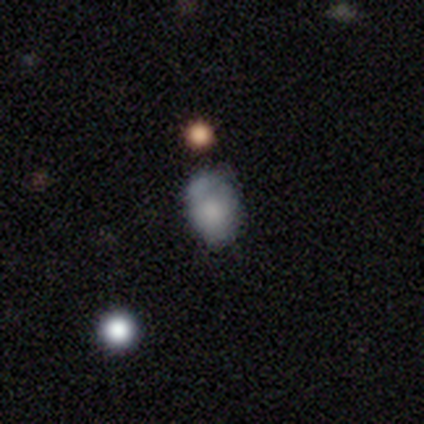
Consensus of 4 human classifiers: smooth_or_featured: smooth (p=0.75) [alt: featured or disk p=0.25]
how_rounded: in between (p=1.00)
merging: none (p=0.75) [alt: minor disturbance p=0.25]